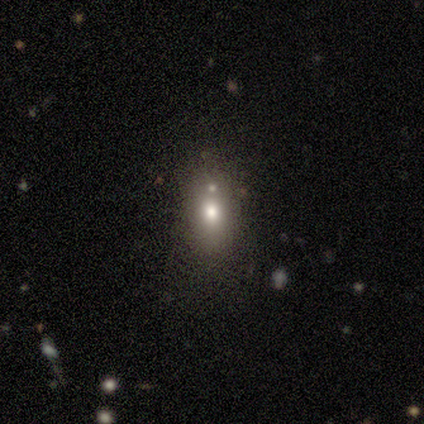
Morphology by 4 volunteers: smooth-or-featured: smooth: 100% | featured or disk: 0% | star or artifact: 0%
  how-rounded: in between: 75% | round: 25% | cigar-shaped: 0%
  merging: merger: 50% | none: 25% | minor disturbance: 25% | major disturbance: 0%